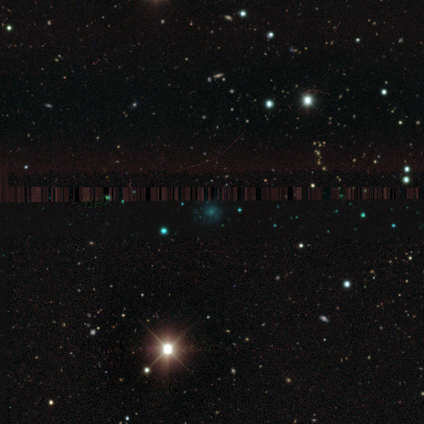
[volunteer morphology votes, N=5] Smooth or featured? star or artifact (60%)